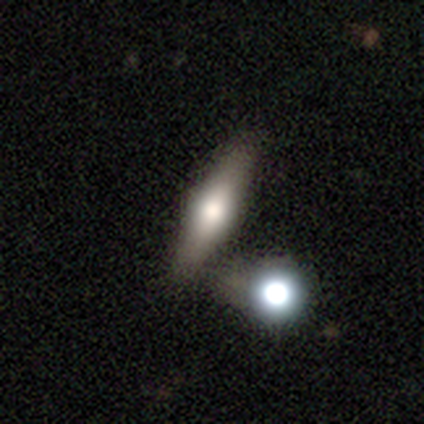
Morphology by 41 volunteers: Q: Smooth or featured?
A: featured or disk (59%); runner-up: smooth (39%)
Q: Edge-on disk?
A: yes (96%); runner-up: no (4%)
Q: Edge-on bulge?
A: rounded (96%); runner-up: none (4%)
Q: Merging?
A: none (50%); runner-up: merger (28%)